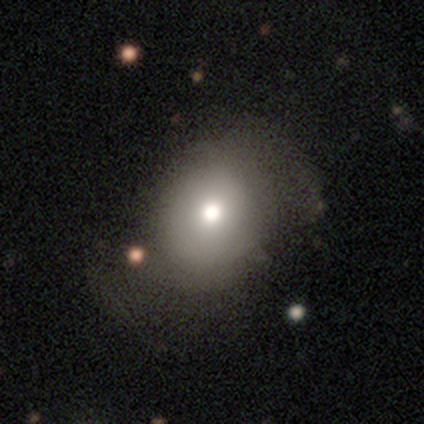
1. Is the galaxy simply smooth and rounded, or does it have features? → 80% featured or disk, 20% smooth, 0% star or artifact.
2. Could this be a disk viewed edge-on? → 100% no, 0% yes.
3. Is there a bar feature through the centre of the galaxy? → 100% no, 0% strong, 0% weak.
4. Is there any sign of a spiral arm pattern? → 100% no, 0% yes.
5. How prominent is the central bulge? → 75% moderate, 25% large, 0% dominant, 0% small, 0% none.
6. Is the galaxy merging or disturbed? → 60% none, 20% minor disturbance, 20% major disturbance, 0% merger.